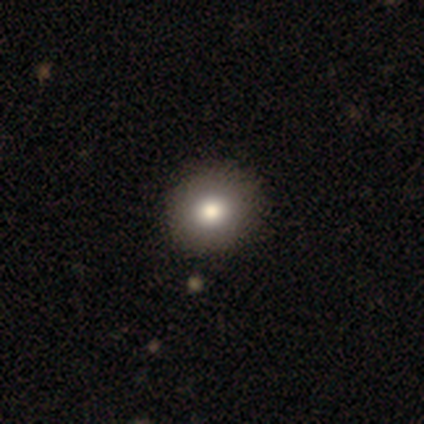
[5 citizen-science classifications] smooth 80%, featured or disk 20%, star or artifact 0%. Down the decision tree: how rounded — round (100%); merging — none (80%).